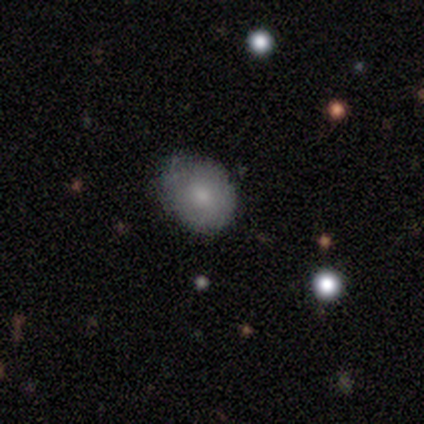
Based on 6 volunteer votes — Overall: smooth (67%). How rounded: round (100%). Merging: none (60%; minor disturbance 40%).